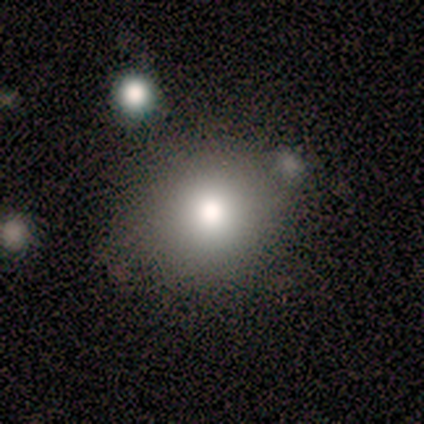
Overall: smooth (60%; star or artifact 40%). How rounded: round (100%). Merging: none (67%; minor disturbance 33%).